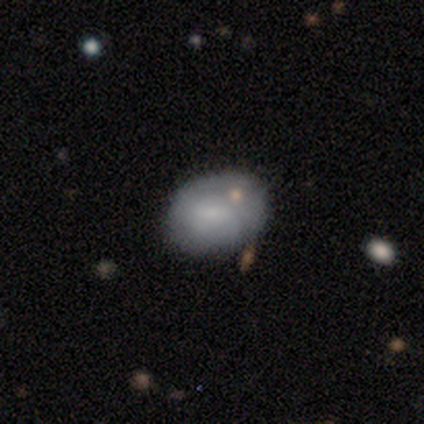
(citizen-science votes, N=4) smooth_or_featured: smooth (p=0.75) [alt: featured or disk p=0.25]
how_rounded: in between (p=1.00)
merging: none (p=0.50) [alt: minor disturbance p=0.25]